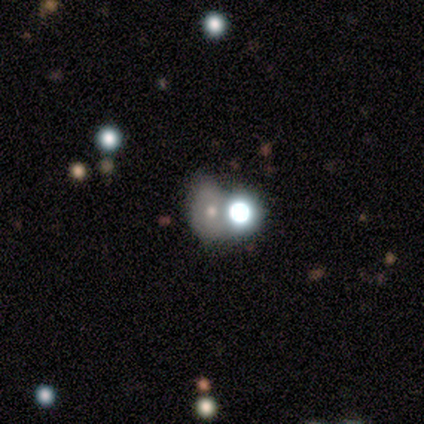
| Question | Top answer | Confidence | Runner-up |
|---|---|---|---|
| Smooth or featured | smooth | 80% | star or artifact (20%) |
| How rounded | round | 50% | tied: in between (50%) |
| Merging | none | 75% | merger (25%) |